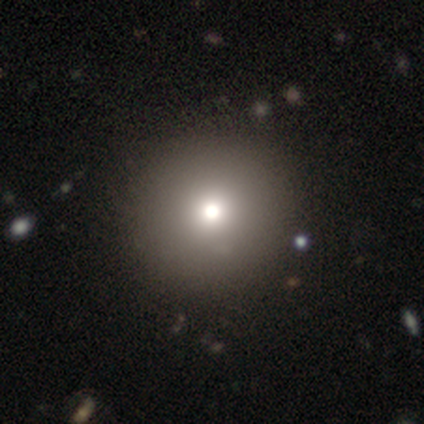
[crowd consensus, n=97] Smooth or featured: smooth — 71% (star or artifact — 20%)
How rounded: round — 94% (in between — 4%)
Merging: none — 91% (minor disturbance — 5%)